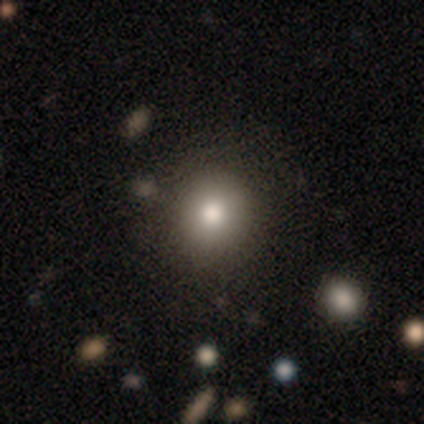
Smooth or featured? 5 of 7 (71%) said smooth. How rounded? 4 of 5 (80%) said round. Merging? 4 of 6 (67%) said none.